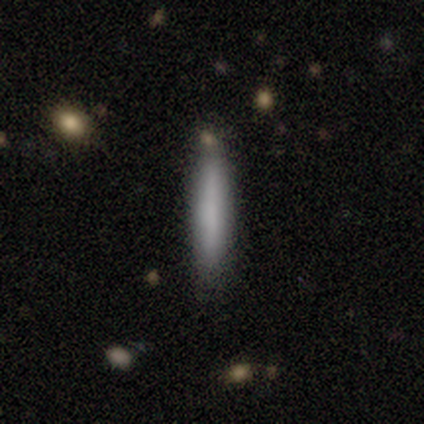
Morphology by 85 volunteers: Smooth or featured: smooth — 75% (featured or disk — 19%)
How rounded: cigar-shaped — 97% (in between — 3%)
Merging: none — 85% (minor disturbance — 8%)